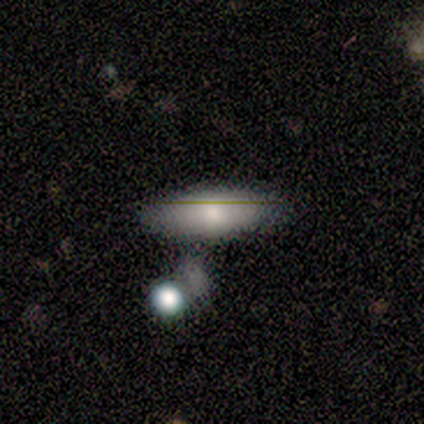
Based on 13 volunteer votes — Morphology: type=smooth (92%); roundness=in between (83%); merging=none (62%).